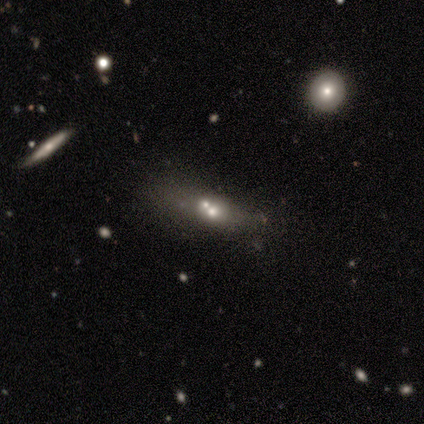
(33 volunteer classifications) A featured or disk galaxy (48%) with no bar (100%), no spiral arms (100%) and a moderate central bulge (62%).

Vote fractions:
- Smooth or featured? featured or disk: 48% / smooth: 33% / star or artifact: 18%
- Edge-on disk? no: 81% / yes: 19%
- Bar? no: 100% / strong: 0% / weak: 0%
- Spiral arms? no: 100% / yes: 0%
- Bulge size? moderate: 62% / none: 15% / dominant: 8% / large: 8% / small: 8%
- Merging? merger: 52% / none: 22% / minor disturbance: 15% / major disturbance: 11%